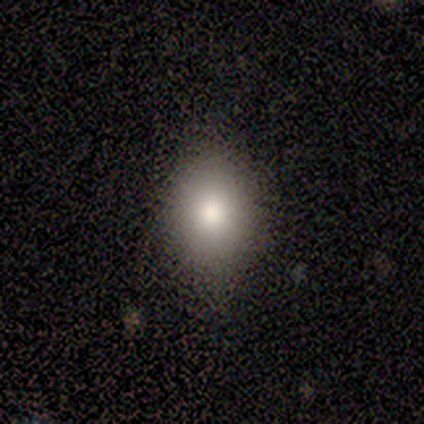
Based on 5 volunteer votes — smooth_or_featured: smooth (p=1.00)
how_rounded: in between (p=0.60) [alt: round p=0.40]
merging: none (p=0.80) [alt: minor disturbance p=0.20]